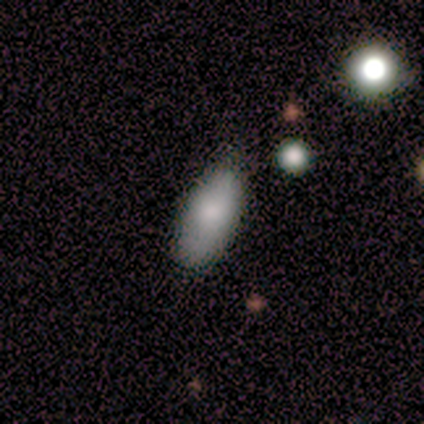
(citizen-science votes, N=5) smooth_or_featured: smooth (p=1.00)
how_rounded: in between (p=1.00)
merging: none (p=0.60) [alt: minor disturbance p=0.40]